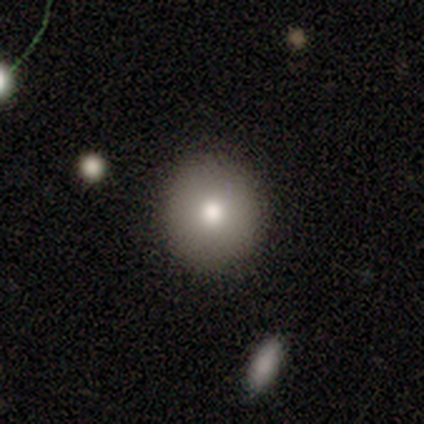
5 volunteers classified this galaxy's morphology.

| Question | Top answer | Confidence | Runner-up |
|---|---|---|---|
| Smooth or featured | smooth | 100% | — |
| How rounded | round | 100% | — |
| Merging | none | 100% | — |